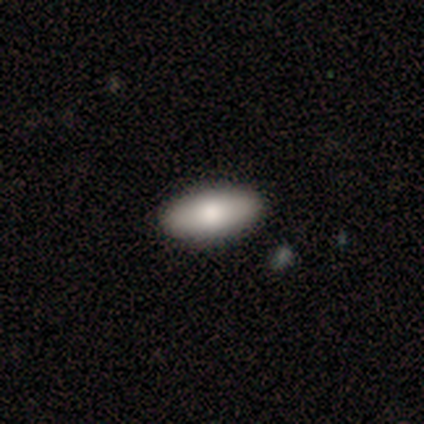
Consensus on every question: smooth or featured — smooth (100%); how rounded — in between (100%); merging — none (100%).